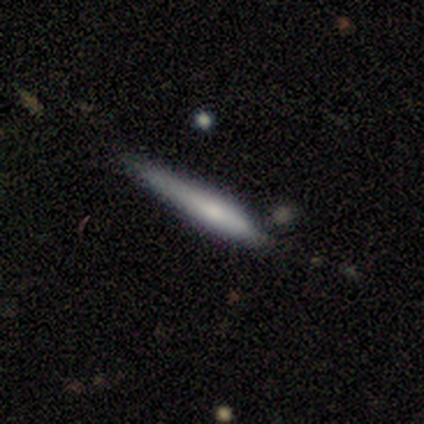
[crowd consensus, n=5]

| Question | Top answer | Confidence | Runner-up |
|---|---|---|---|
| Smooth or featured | smooth | 100% | — |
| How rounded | cigar-shaped | 100% | — |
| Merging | none | 40% | tied: major disturbance (40%) |